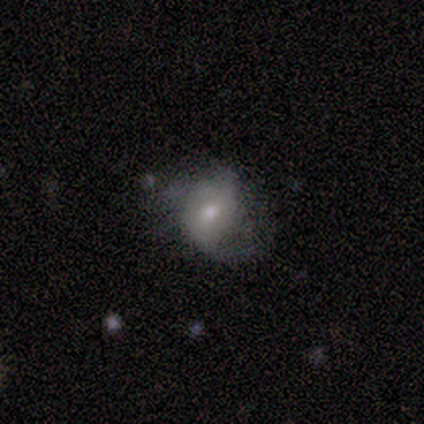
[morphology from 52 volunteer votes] Smooth or featured: featured or disk — 60% (smooth — 35%)
Edge-on disk: no — 100%
Bar: no — 71% (weak — 29%)
Spiral arms: yes — 68% (no — 32%)
Spiral winding: loose — 43% (tight — 29%)
Spiral arm count: 2 — 62% (can't tell — 24%)
Bulge size: moderate — 55% (small — 39%)
Merging: none — 39% (major disturbance — 27%)